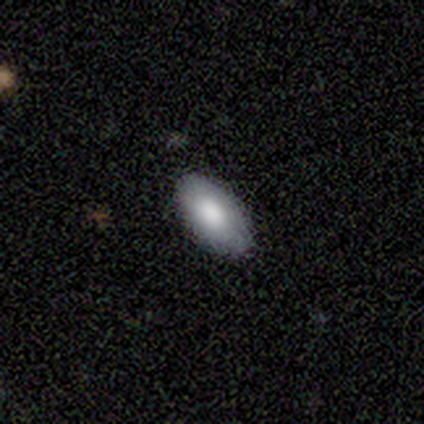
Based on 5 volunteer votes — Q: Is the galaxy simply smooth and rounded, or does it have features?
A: smooth — 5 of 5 (100%).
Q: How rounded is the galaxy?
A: in between — 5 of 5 (100%).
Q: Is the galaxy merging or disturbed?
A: none — 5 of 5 (100%).